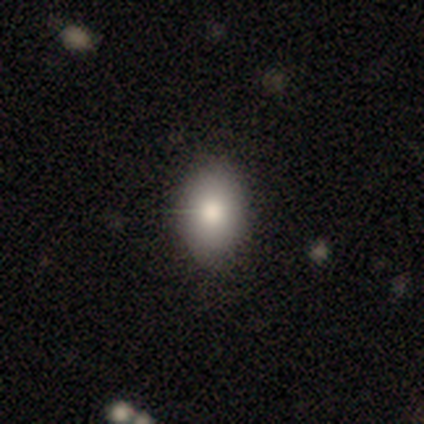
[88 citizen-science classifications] Smooth or featured? 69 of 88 (78%) said smooth. How rounded? 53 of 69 (77%) said in between. Merging? 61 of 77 (79%) said none.